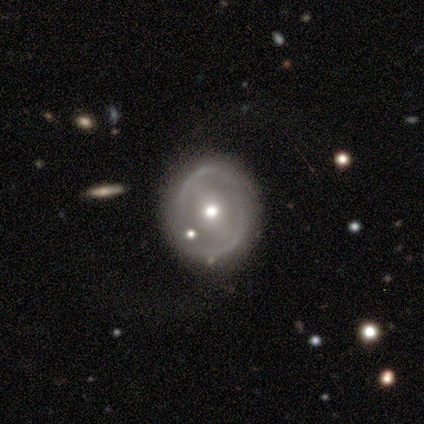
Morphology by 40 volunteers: Smooth or featured?
  - featured or disk: 60% *
  - smooth: 35%
  - star or artifact: 5%
Edge-on disk?
  - no: 96% *
  - yes: 4%
Bar?
  - strong: 43% *
  - weak: 30%
  - no: 26%
Spiral arms?
  - no: 78% *
  - yes: 22%
Bulge size?
  - moderate: 74% *
  - large: 17%
  - dominant: 4%
  - small: 4%
  - none: 0%
Merging?
  - none: 84% *
  - minor disturbance: 11%
  - major disturbance: 3%
  - merger: 3%